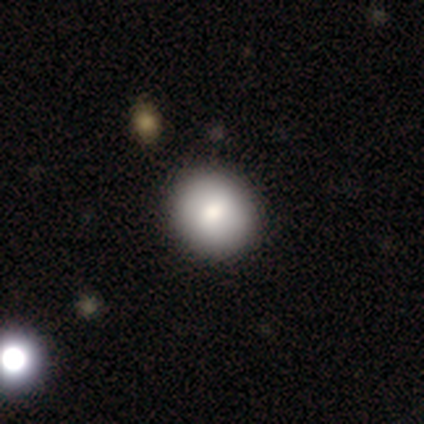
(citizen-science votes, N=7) A smooth galaxy with no disk features (86%) that is round (100%). Merging: none (100%).